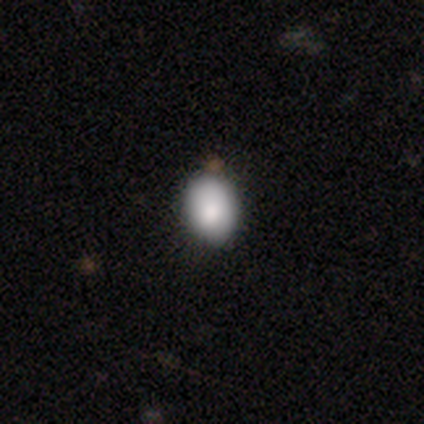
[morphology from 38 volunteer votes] smooth 87%, featured or disk 8%, star or artifact 5%. Down the decision tree: how rounded — in between (55%); merging — none (83%).